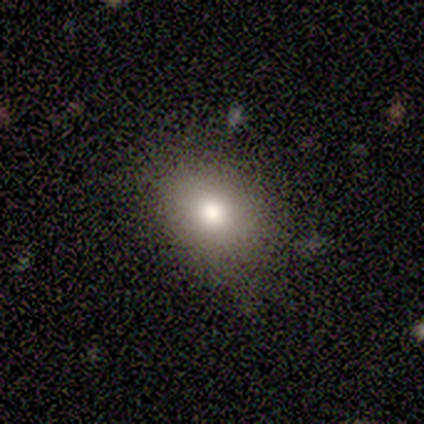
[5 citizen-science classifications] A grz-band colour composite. It shows a smooth galaxy with no disk features (80%) that is round (75%). Merging: none (80%).